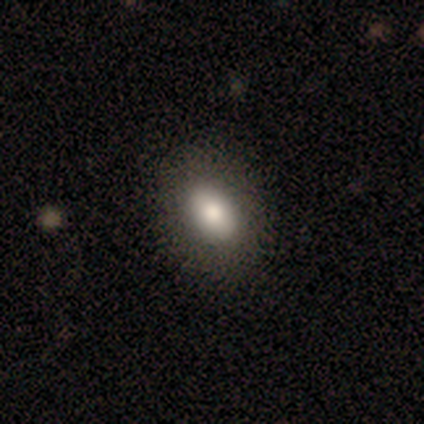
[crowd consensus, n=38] Smooth or featured?
  - smooth: 87% *
  - star or artifact: 11%
  - featured or disk: 3%
How rounded?
  - in between: 82% *
  - round: 18%
  - cigar-shaped: 0%
Merging?
  - none: 91% *
  - minor disturbance: 6%
  - major disturbance: 3%
  - merger: 0%